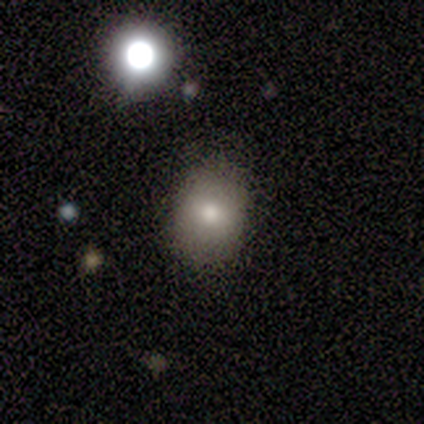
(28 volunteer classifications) smooth 75%, star or artifact 21%, featured or disk 4%. Down the decision tree: how rounded — round (52%); merging — none (86%).